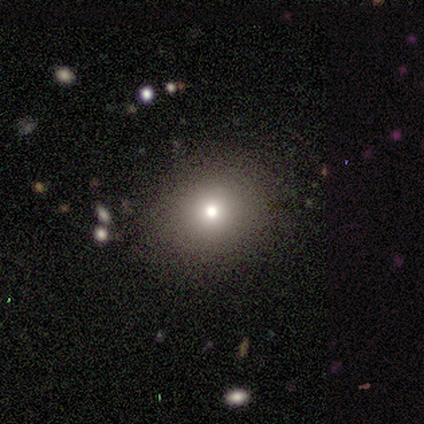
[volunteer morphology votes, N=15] smooth-or-featured: smooth: 73% | featured or disk: 13% | star or artifact: 13%
  how-rounded: round: 100% | in between: 0% | cigar-shaped: 0%
  merging: none: 100% | minor disturbance: 0% | major disturbance: 0% | merger: 0%